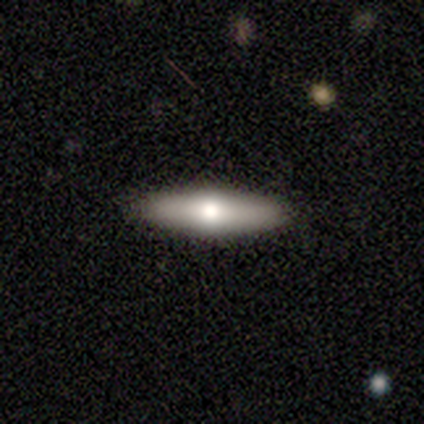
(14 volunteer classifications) Volunteers were most divided on "smooth or featured": smooth: 57%, featured or disk: 36%, star or artifact: 7%. More confident: merging — none (92%); how rounded — cigar-shaped (88%).